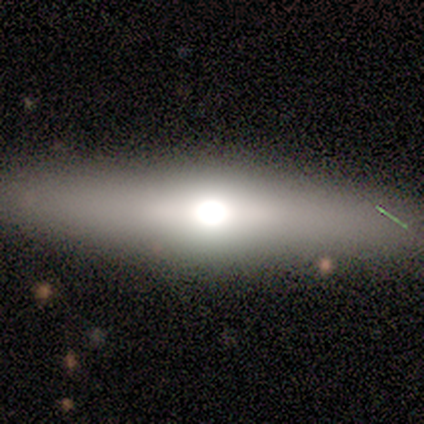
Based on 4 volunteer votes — smooth_or_featured: featured or disk (p=0.50) [alt: smooth p=0.25]
disk_edge_on: yes (p=1.00)
edge_on_bulge: rounded (p=1.00)
merging: none (p=1.00)